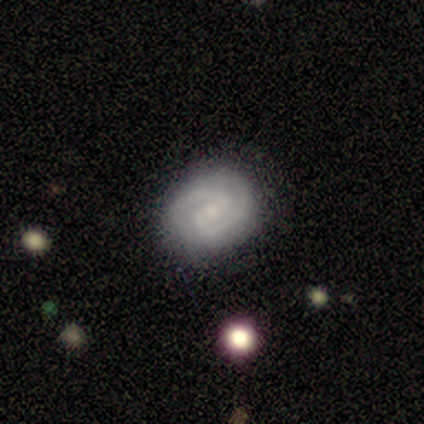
Smooth or featured? 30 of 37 (81%) said featured or disk. Edge-on disk? 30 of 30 (100%) said no. Bar? 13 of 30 (43%) said weak. Spiral arms? 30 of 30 (100%) said yes. Spiral winding? 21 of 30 (70%) said tight. Spiral arm count? 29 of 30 (97%) said 2. Bulge size? 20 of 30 (67%) said small. Merging? 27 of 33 (82%) said none.